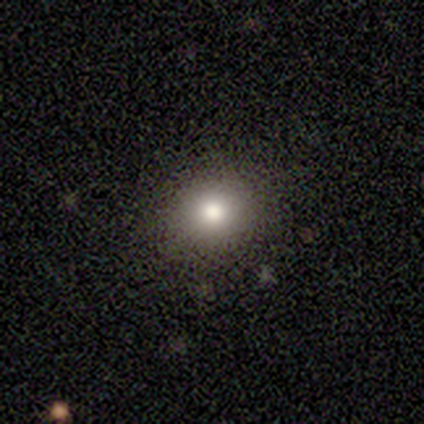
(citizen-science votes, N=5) smooth_or_featured: smooth (p=1.00)
how_rounded: round (p=1.00)
merging: none (p=1.00)